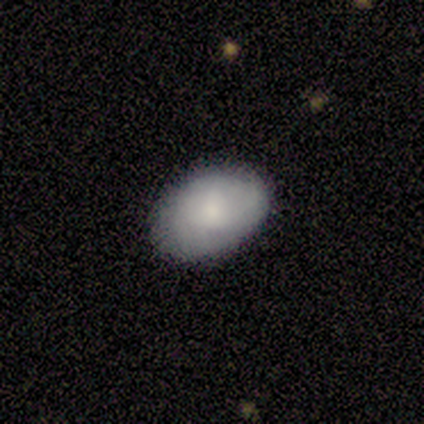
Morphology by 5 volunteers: Smooth or featured?
  - smooth: 100% *
  - featured or disk: 0%
  - star or artifact: 0%
How rounded?
  - in between: 80% *
  - round: 20%
  - cigar-shaped: 0%
Merging?
  - none: 100% *
  - minor disturbance: 0%
  - major disturbance: 0%
  - merger: 0%